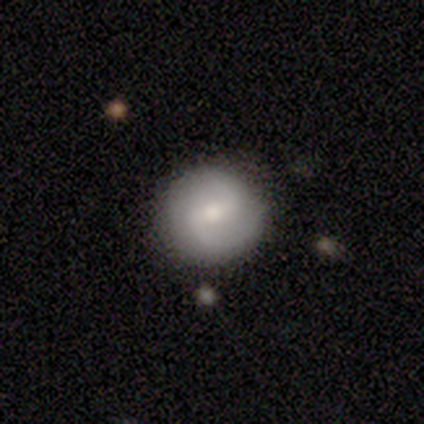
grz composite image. It shows a featured or disk galaxy (44%) with a weak bar (56%), 2 (100%) medium (60%) spiral arms (94%) and a small central bulge (56%). Merging: none (85%).